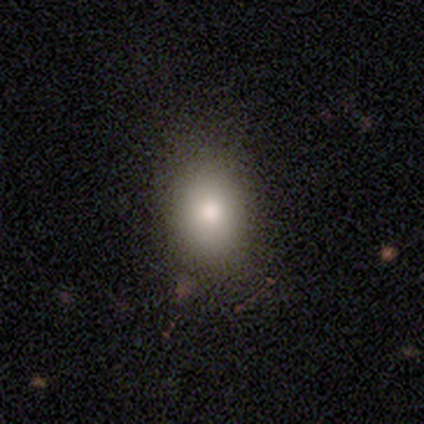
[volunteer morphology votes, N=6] Smooth or featured? smooth (100%)
How rounded? in between (67%)
Merging? none (100%)